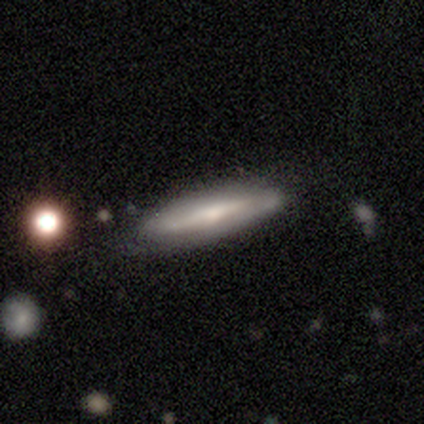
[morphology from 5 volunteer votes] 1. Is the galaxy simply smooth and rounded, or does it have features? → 80% featured or disk, 20% smooth, 0% star or artifact.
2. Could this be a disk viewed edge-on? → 75% yes, 25% no.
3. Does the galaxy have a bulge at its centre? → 100% rounded, 0% boxy, 0% none.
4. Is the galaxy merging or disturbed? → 80% none, 20% major disturbance, 0% minor disturbance, 0% merger.